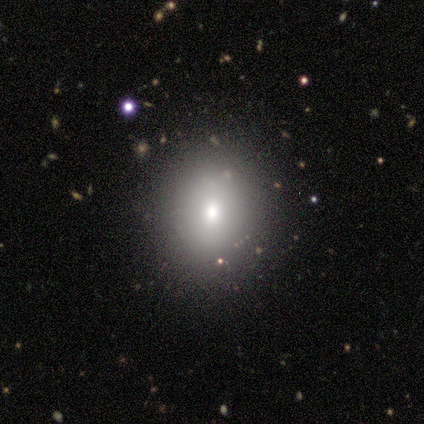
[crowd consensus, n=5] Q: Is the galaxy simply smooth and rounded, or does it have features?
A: smooth — 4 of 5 (80%).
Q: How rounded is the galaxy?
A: round — 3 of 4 (75%).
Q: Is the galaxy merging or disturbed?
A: none — 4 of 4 (100%).